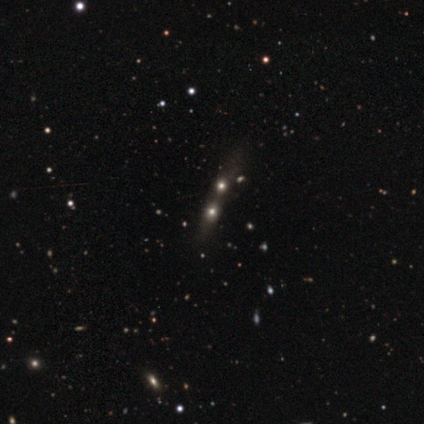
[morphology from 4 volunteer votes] Smooth or featured? 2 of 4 (50%) said featured or disk. Edge-on disk? 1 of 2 (50%, tied with no) said yes. Edge-on bulge? 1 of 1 (100%) said none. Merging? 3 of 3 (100%) said merger.